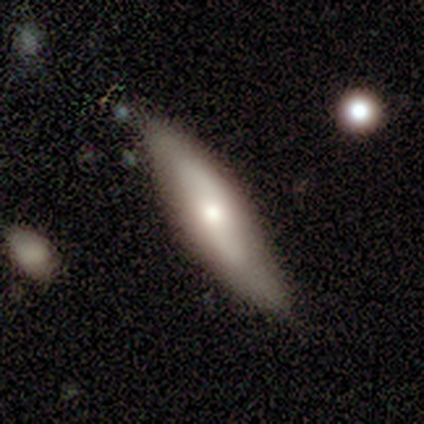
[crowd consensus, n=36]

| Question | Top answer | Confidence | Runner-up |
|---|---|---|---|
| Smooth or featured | smooth | 53% | featured or disk (42%) |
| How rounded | cigar-shaped | 63% | in between (37%) |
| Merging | none | 79% | minor disturbance (12%) |